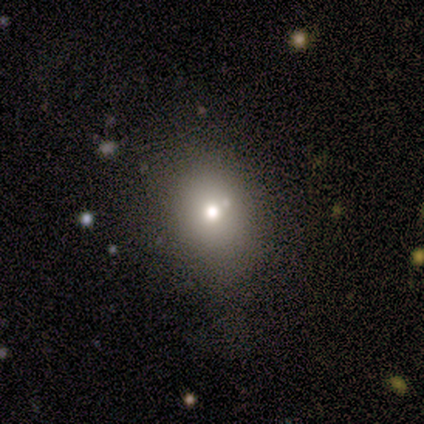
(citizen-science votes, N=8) This is likely a smooth galaxy (75%). How rounded: likely round (67%). Merging: likely none (71%).